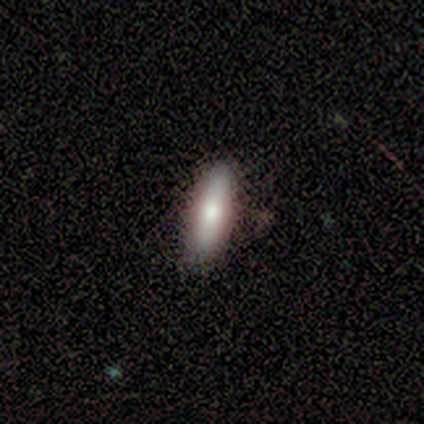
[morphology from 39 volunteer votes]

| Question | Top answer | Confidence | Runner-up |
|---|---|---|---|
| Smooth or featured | smooth | 90% | featured or disk (8%) |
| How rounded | cigar-shaped | 63% | in between (37%) |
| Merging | none | 79% | minor disturbance (18%) |